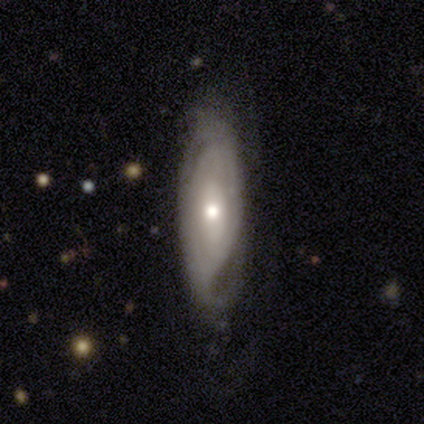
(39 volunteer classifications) Overall: featured or disk (87%). Edge-on disk: no (79%). Bar: no (78%). Spiral arms: yes (63%; no 37%). Spiral arm count: can't tell (65%). Spiral winding: tight (71%). Bulge size: moderate (56%; small 37%). Merging: none (77%).